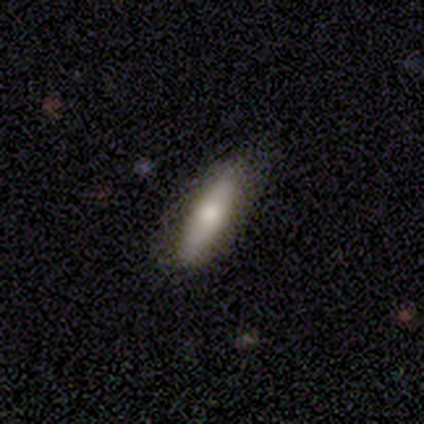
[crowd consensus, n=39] A smooth galaxy with no disk features (62%) that is cigar-shaped (62%).

Vote fractions:
- Smooth or featured? smooth: 62% / featured or disk: 31% / star or artifact: 8%
- How rounded? cigar-shaped: 62% / in between: 38% / round: 0%
- Merging? none: 81% / minor disturbance: 17% / major disturbance: 3% / merger: 0%